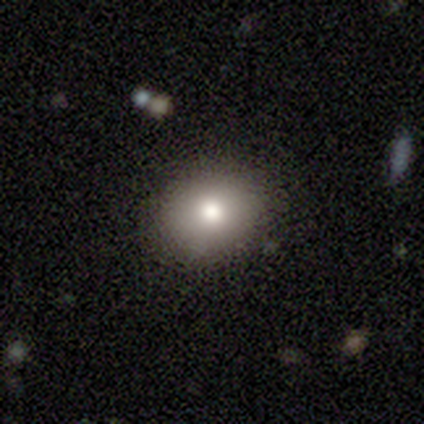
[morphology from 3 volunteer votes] Smooth or featured: smooth — 67% (star or artifact — 33%)
How rounded: in between — 100%
Merging: none — 100%